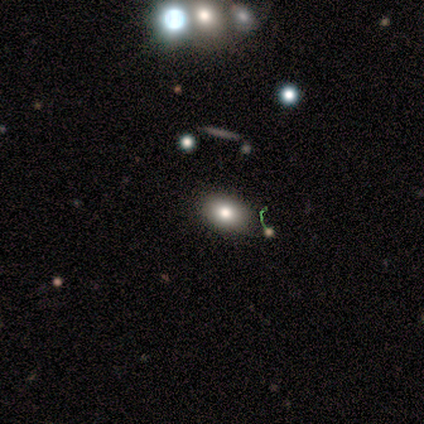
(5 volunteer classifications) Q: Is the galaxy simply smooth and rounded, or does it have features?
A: smooth — 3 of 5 (60%).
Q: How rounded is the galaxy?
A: in between — 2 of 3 (67%).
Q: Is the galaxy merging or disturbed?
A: none — 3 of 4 (75%).